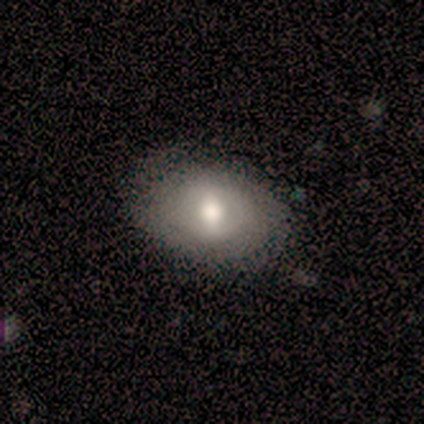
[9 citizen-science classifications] This is possibly a smooth galaxy (56%). How rounded: clearly in between (100%). Merging: likely none (78%).